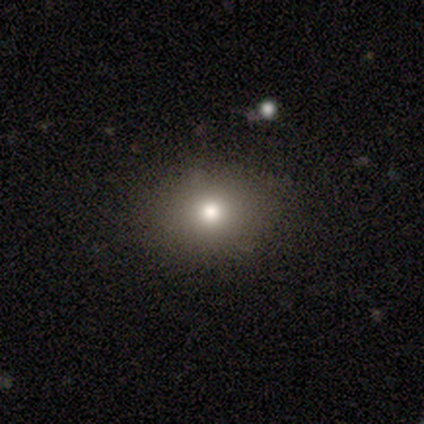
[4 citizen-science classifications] smooth-or-featured: smooth: 75% | featured or disk: 25% | star or artifact: 0%
  how-rounded: in between: 67% | round: 33% | cigar-shaped: 0%
  merging: none: 100% | minor disturbance: 0% | major disturbance: 0% | merger: 0%